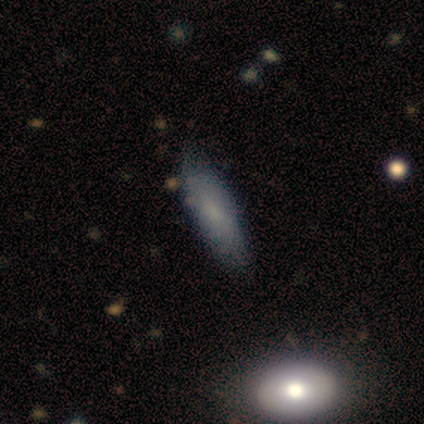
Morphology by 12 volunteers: Q: Smooth or featured?
A: smooth (83%); runner-up: star or artifact (17%)
Q: How rounded?
A: cigar-shaped (70%); runner-up: in between (30%)
Q: Merging?
A: none (70%); runner-up: minor disturbance (30%)